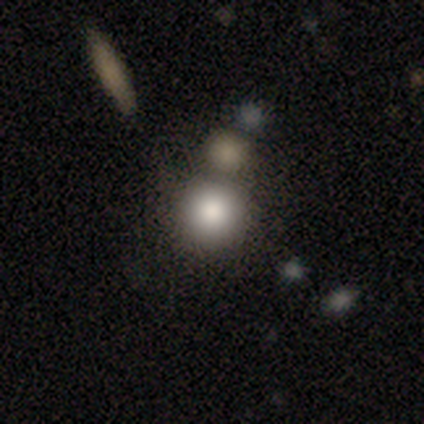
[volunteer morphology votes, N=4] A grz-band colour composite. It shows a smooth galaxy with no disk features (100%) that is round (100%). Merging: none (75%).